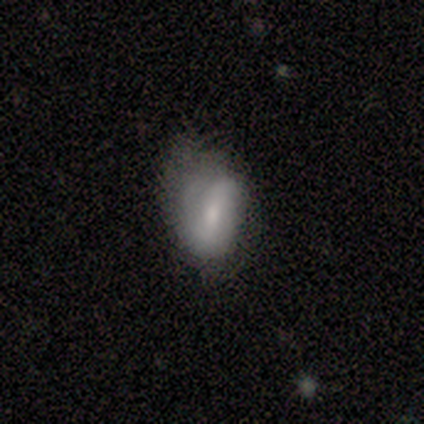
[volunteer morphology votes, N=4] smooth 50% (tied), featured or disk 50% (tied), star or artifact 0%. Down the decision tree: how rounded — in between (100%); merging — none (50%, tied with minor disturbance).